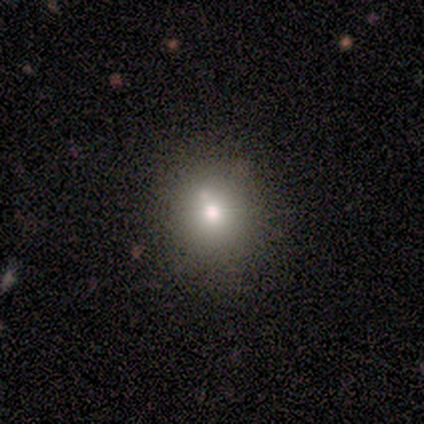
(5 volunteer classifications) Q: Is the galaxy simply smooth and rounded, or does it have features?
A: smooth — 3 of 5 (60%).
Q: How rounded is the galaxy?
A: round — 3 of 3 (100%).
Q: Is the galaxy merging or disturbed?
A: none — 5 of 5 (100%).